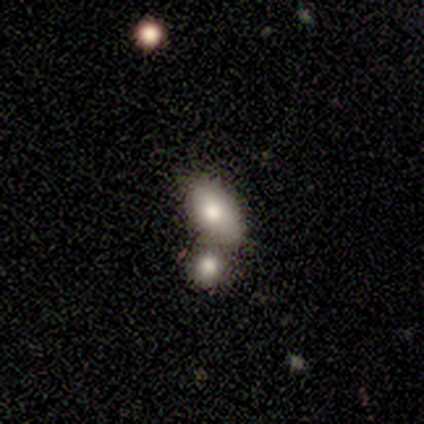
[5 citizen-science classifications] Q: Smooth or featured?
A: smooth (80%); runner-up: featured or disk (20%)
Q: How rounded?
A: in between (100%)
Q: Merging?
A: none (60%); runner-up: merger (40%)